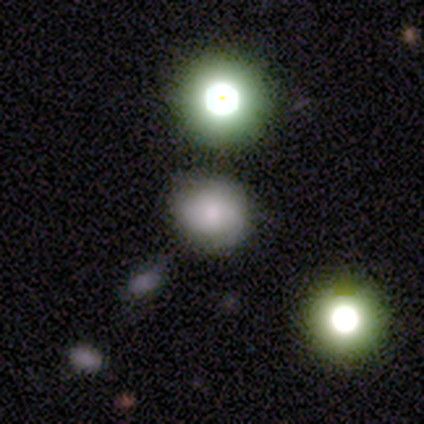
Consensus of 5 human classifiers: A smooth galaxy with no disk features (60%) that is round (67%). Merging: none (50%).